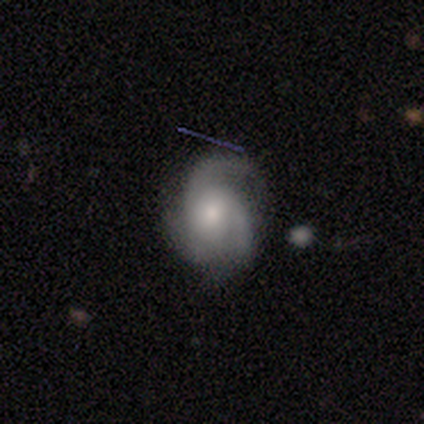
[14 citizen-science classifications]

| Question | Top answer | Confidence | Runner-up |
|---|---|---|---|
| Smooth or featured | featured or disk | 79% | smooth (21%) |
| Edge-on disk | no | 91% | yes (9%) |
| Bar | no | 80% | weak (20%) |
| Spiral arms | yes | 100% | — |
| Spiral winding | medium | 60% | tight (40%) |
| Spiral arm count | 3 | 70% | 2 (30%) |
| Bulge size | moderate | 70% | small (30%) |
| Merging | none | 57% | minor disturbance (29%) |